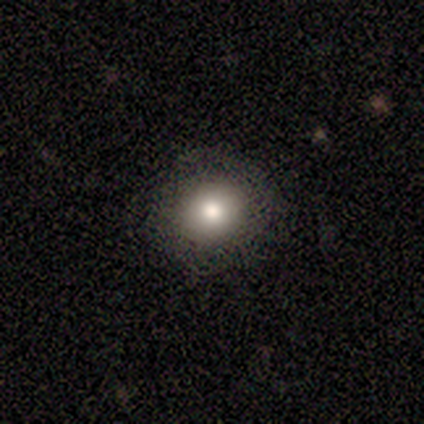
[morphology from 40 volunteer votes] Overall: smooth (82%). How rounded: round (88%). Merging: none (84%).